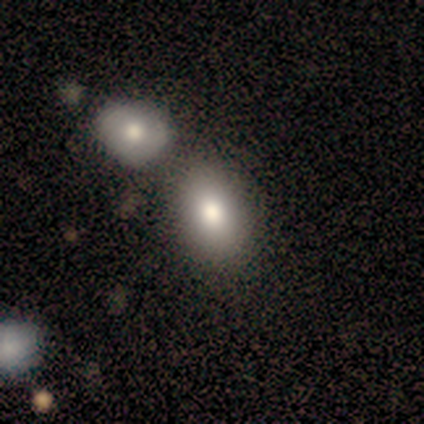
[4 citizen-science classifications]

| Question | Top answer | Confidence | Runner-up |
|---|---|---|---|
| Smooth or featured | smooth | 75% | featured or disk (25%) |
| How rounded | in between | 100% | — |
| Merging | none | 50% | minor disturbance (25%) |